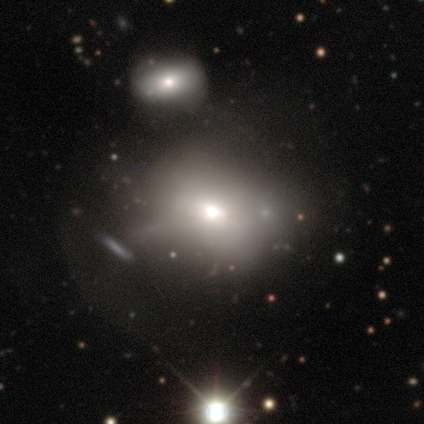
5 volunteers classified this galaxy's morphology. Smooth or featured? 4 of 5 (80%) said smooth. How rounded? 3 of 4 (75%) said round. Merging? 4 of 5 (80%) said none.